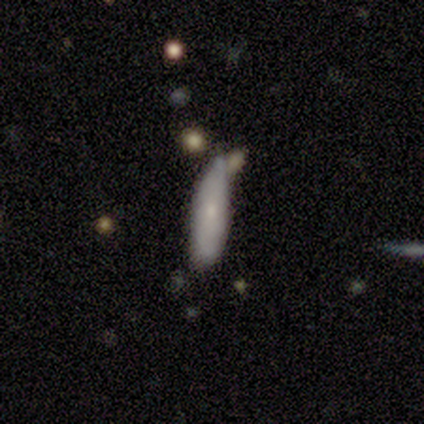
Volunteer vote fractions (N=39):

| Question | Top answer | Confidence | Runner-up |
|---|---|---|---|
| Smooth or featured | smooth | 67% | featured or disk (18%) |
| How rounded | cigar-shaped | 81% | in between (19%) |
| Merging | none | 48% | minor disturbance (39%) |